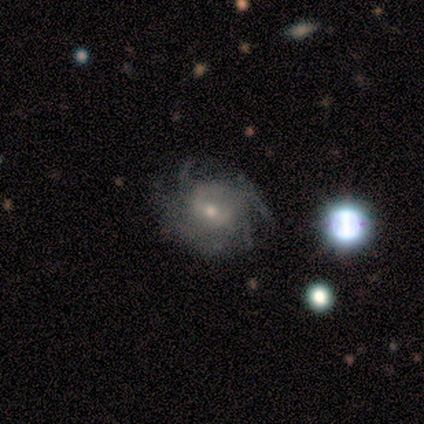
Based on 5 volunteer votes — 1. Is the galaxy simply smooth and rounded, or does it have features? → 100% featured or disk, 0% smooth, 0% star or artifact.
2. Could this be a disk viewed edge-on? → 100% no, 0% yes.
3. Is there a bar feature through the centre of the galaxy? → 60% weak, 40% no, 0% strong.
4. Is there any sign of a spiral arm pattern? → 80% yes, 20% no.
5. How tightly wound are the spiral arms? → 100% medium, 0% tight, 0% loose.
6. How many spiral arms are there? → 75% 4, 25% 2, 0% 1, 0% 3, 0% more than 4, 0% can't tell.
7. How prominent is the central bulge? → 100% small, 0% dominant, 0% large, 0% moderate, 0% none.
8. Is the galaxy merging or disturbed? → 40% none (tied), 40% minor disturbance (tied), 20% major disturbance, 0% merger.